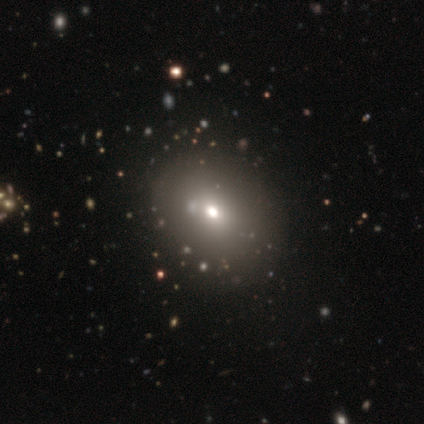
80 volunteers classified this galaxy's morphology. Smooth or featured? smooth (75%)
How rounded? round (50%, tied with in between)
Merging? none (41%)